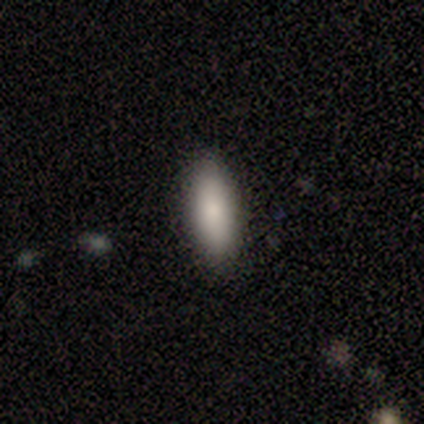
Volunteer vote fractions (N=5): Q: Smooth or featured?
A: smooth (100%)
Q: How rounded?
A: cigar-shaped (80%); runner-up: in between (20%)
Q: Merging?
A: none (80%); runner-up: minor disturbance (20%)